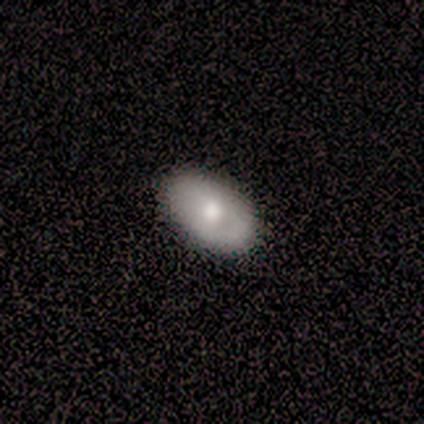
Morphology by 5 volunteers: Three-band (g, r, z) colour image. It shows a smooth galaxy with no disk features (60%) that is in between round and cigar-shaped (100%). Merging: none (100%).